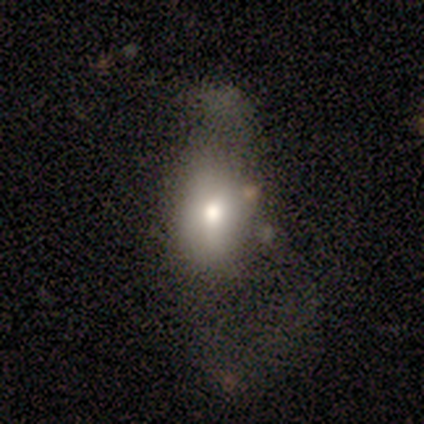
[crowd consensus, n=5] Smooth or featured? 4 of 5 (80%) said smooth. How rounded? 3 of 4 (75%) said round. Merging? 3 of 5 (60%) said major disturbance.